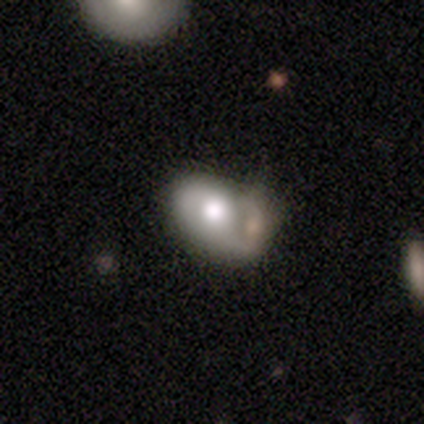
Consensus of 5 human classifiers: Smooth or featured: featured or disk — 60% (smooth — 40%)
Edge-on disk: no — 100%
Bar: no — 100%
Spiral arms: no — 67% (yes — 33%)
Bulge size: moderate — 67% (dominant — 33%)
Merging: merger — 60% (none — 20%)